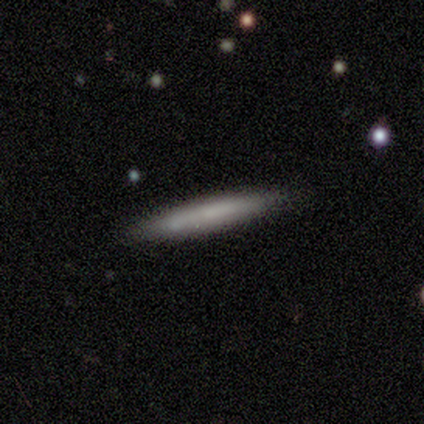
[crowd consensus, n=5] A smooth galaxy with no disk features (80%) that is cigar-shaped (100%). Merging: none (80%).